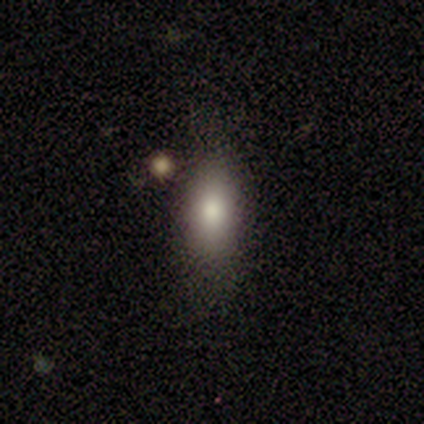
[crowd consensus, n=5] A smooth galaxy with no disk features (100%) that is in between round and cigar-shaped (80%).

Vote fractions:
- Smooth or featured? smooth: 100% / featured or disk: 0% / star or artifact: 0%
- How rounded? in between: 80% / cigar-shaped: 20% / round: 0%
- Merging? none: 80% / minor disturbance: 20% / major disturbance: 0% / merger: 0%